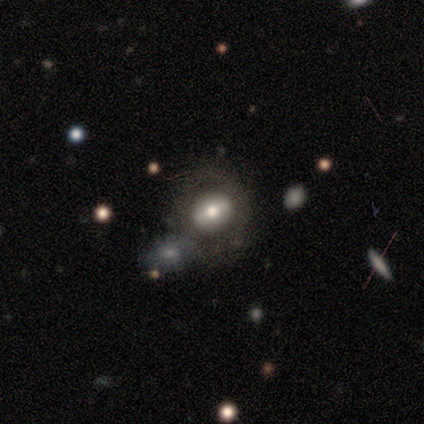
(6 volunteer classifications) Volunteers were most divided on "merging" (2-way tie): none: 50%, merger: 50%, minor disturbance: 0%, major disturbance: 0%. More confident: edge-on disk — no (100%); spiral arms — no (100%); bulge size — moderate (75%); smooth or featured — featured or disk (67%); bar — no (50%).